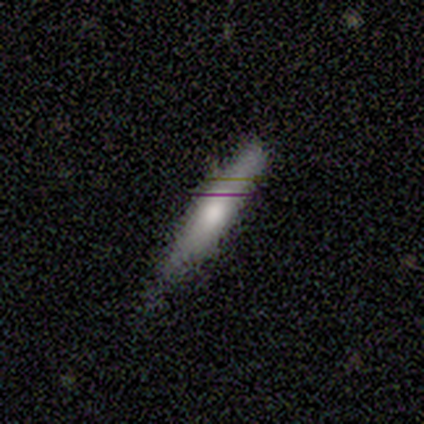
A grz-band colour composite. It shows a smooth galaxy with no disk features (60%) that is cigar-shaped (100%). Merging: none (60%).